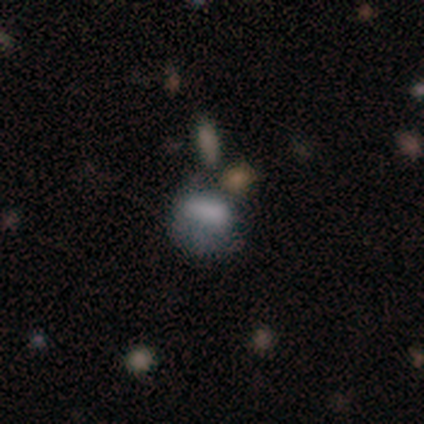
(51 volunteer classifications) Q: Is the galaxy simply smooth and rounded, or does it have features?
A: featured or disk — 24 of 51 (47%).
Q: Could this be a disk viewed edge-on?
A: no — 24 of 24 (100%).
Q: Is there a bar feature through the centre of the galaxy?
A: no — 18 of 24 (75%).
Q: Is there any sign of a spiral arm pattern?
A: no — 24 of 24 (100%).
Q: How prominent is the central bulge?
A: none — 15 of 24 (62%).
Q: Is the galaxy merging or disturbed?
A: minor disturbance — 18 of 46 (39%).